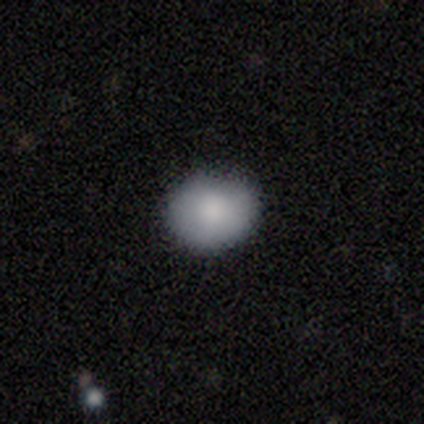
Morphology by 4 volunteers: This is clearly a smooth galaxy (100%). How rounded: possibly round (50%, tied with in between). Merging: likely none (75%).